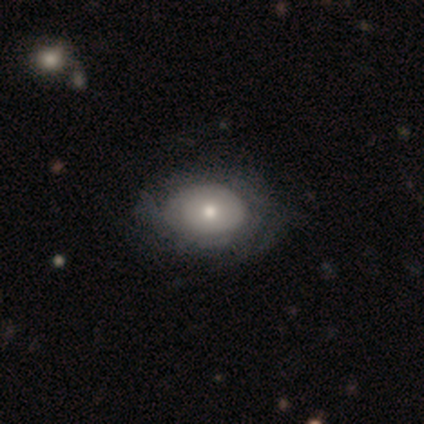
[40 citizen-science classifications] A smooth galaxy with no disk features (52%) that is in between round and cigar-shaped (67%). Merging: none (33%).